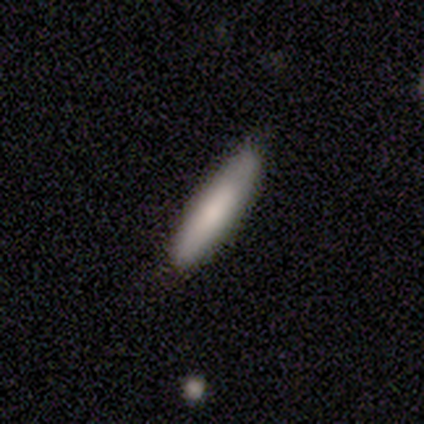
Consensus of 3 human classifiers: This is clearly a smooth galaxy (100%). How rounded: clearly cigar-shaped (100%). Merging: clearly none (100%).